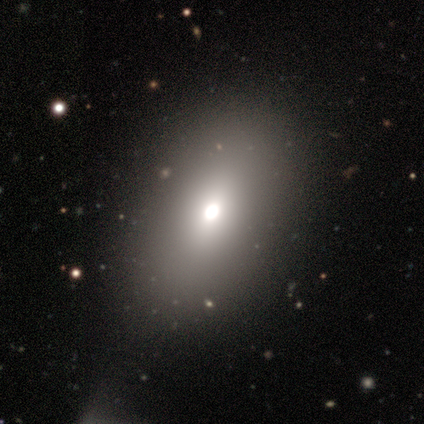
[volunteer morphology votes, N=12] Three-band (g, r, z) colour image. It shows a smooth galaxy with no disk features (67%) that is in between round and cigar-shaped (100%). Merging: none (78%).